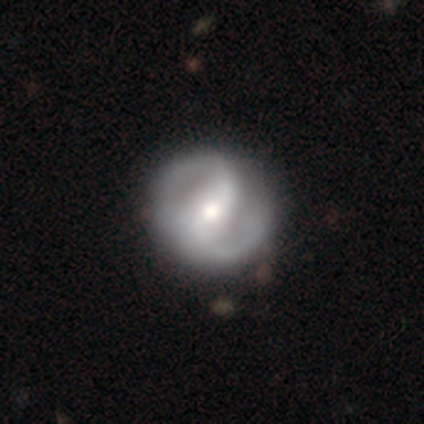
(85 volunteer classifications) featured or disk 79%, smooth 14%, star or artifact 7%. Down the decision tree: edge-on disk — no (96%); bar — weak (47%); spiral arms — yes (94%); spiral arm count — 2 (95%); spiral winding — medium (63%); bulge size — moderate (62%); merging — none (84%).